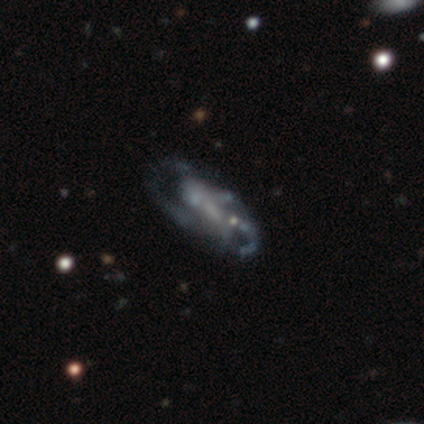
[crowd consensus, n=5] smooth_or_featured: featured or disk (p=0.80) [alt: star or artifact p=0.20]
disk_edge_on: no (p=1.00)
bar: no (p=0.50) [alt: strong p=0.25]
has_spiral_arms: yes (p=0.50) [tied with: no p=0.50]
spiral_winding: tight (p=0.50) [tied with: medium p=0.50]
spiral_arm_count: 2 (p=0.50) [tied with: 4 p=0.50]
bulge_size: none (p=0.50) [alt: large p=0.25]
merging: major disturbance (p=0.75) [alt: minor disturbance p=0.25]